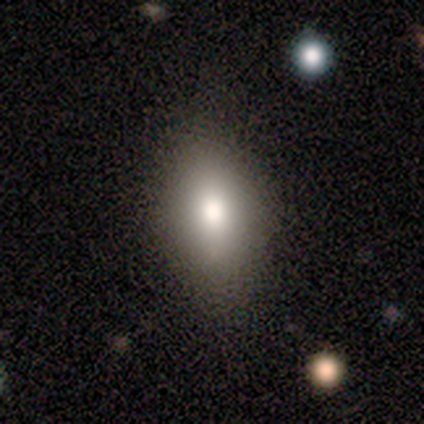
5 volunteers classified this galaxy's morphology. Smooth or featured: smooth — 80% (featured or disk — 20%)
How rounded: in between — 75% (round — 25%)
Merging: none — 100%